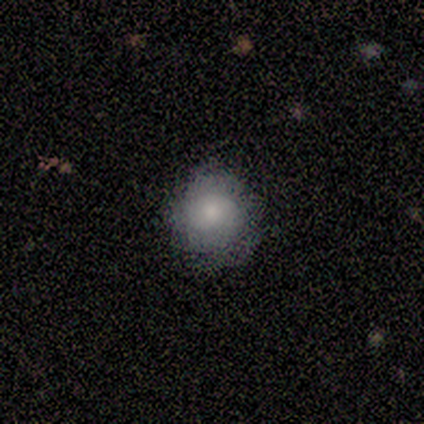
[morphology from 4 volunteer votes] A smooth galaxy with no disk features (50%) that is round (100%). Merging: minor disturbance (67%).